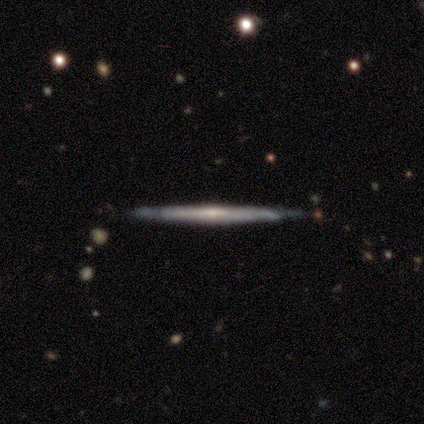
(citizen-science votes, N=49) Overall: featured or disk (84%). Edge-on disk: yes (93%). Edge-on bulge: rounded (47%; none 37%). Merging: none (73%).